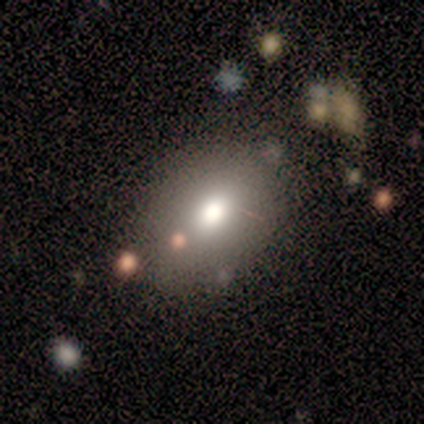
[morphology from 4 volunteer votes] type=smooth (75%); roundness=in between (100%); merging=none (100%).